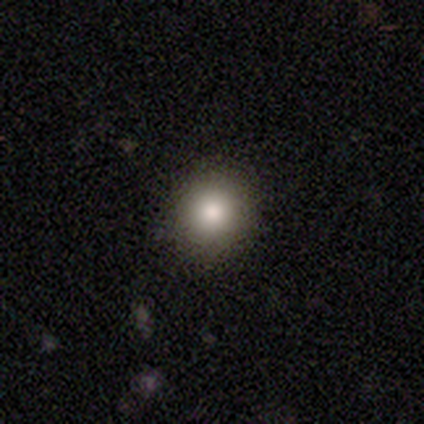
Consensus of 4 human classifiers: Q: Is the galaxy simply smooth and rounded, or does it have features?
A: smooth — 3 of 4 (75%).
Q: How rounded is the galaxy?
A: round — 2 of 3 (67%).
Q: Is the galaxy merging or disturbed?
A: none — 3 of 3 (100%).